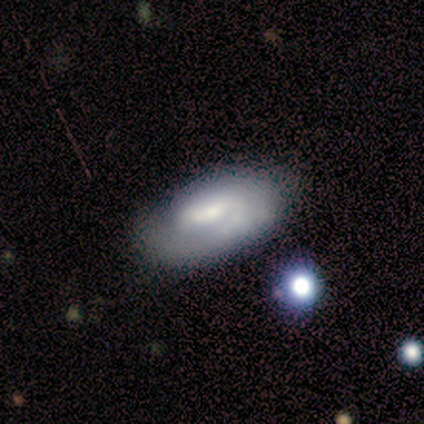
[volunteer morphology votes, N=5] Smooth or featured? featured or disk (60%)
Edge-on disk? no (100%)
Bar? strong (33%, tied with weak and no)
Spiral arms? yes (100%)
Spiral winding? tight (33%, tied with medium and loose)
Spiral arm count? 1 (33%, tied with 2 and can't tell)
Bulge size? moderate (67%)
Merging? minor disturbance (60%)